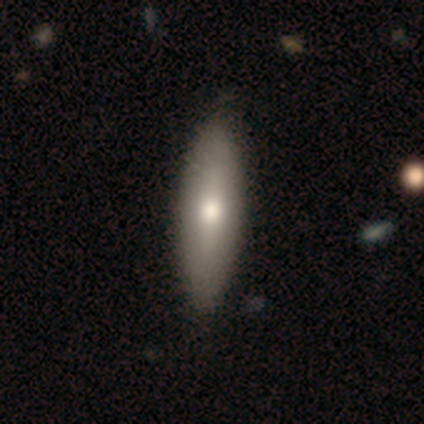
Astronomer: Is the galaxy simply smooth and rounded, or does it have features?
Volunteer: smooth — 60% (runner-up: featured or disk, 40%).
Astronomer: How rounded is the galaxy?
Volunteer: in between — 100%.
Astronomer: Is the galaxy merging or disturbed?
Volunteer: none — 100%.